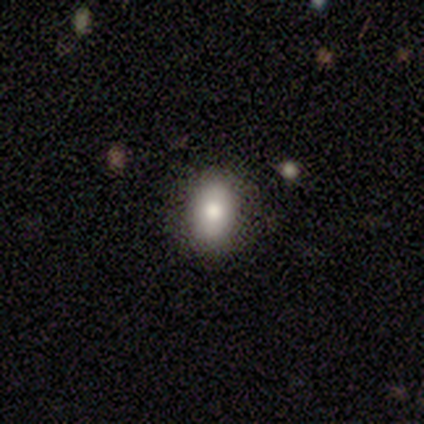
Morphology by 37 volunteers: type=smooth (73%); roundness=in between (70%); merging=none (85%).